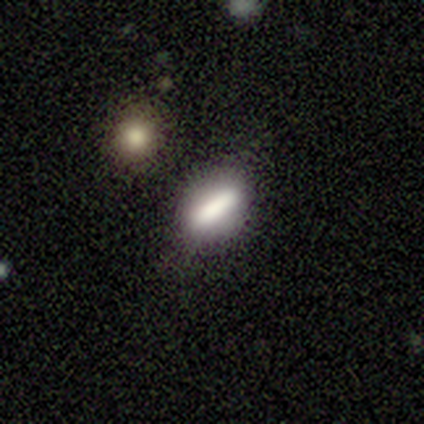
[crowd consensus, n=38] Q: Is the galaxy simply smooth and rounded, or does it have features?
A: smooth — 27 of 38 (71%).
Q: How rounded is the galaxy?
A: cigar-shaped — 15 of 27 (56%).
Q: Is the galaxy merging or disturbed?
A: none — 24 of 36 (67%).